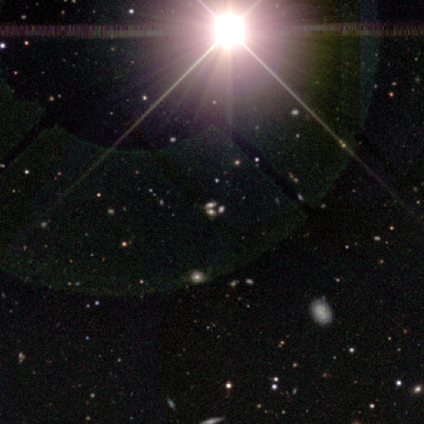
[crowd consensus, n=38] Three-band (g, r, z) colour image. It shows a star or artifact, not a galaxy (66%).